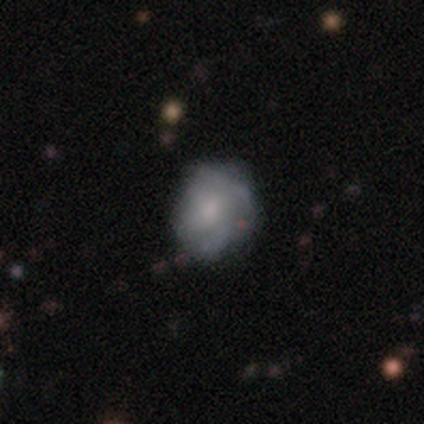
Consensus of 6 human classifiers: smooth-or-featured: featured or disk: 100% | smooth: 0% | star or artifact: 0%
  disk-edge-on: no: 100% | yes: 0%
    bar: weak: 50% (tied) | no: 50% (tied) | strong: 0%
    has-spiral-arms: yes: 67% | no: 33%
      spiral-winding: loose: 50% | tight: 25% | medium: 25%
      spiral-arm-count: can't tell: 50% | 2: 25% | 3: 25% | 1: 0% | 4: 0% | more than 4: 0%
    bulge-size: moderate: 50% | small: 33% | none: 17% | dominant: 0% | large: 0%
  merging: none: 50% | minor disturbance: 33% | major disturbance: 17% | merger: 0%